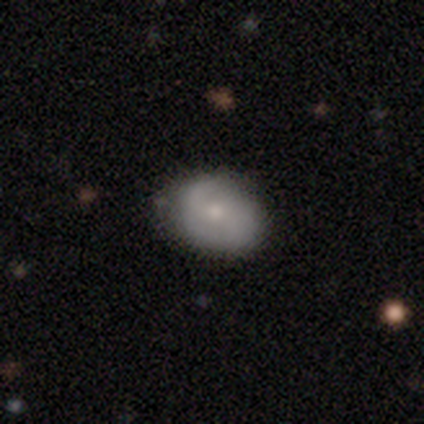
smooth_or_featured: smooth (p=0.50) [alt: featured or disk p=0.42]
how_rounded: in between (p=0.70) [alt: round p=0.30]
merging: none (p=0.81) [alt: minor disturbance p=0.16]